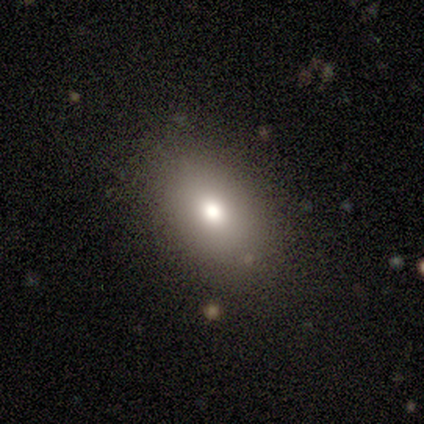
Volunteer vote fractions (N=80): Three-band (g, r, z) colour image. It shows a smooth galaxy with no disk features (85%) that is in between round and cigar-shaped (87%). Merging: none (46%).